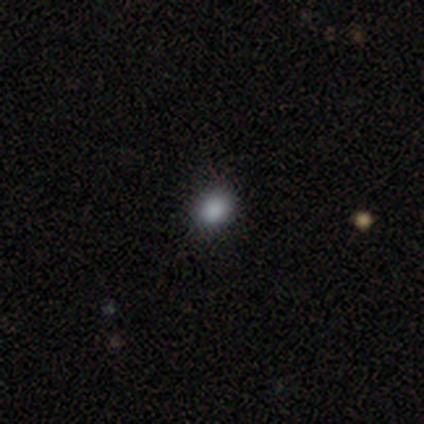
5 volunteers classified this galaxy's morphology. smooth 80%, featured or disk 20%, star or artifact 0%. Down the decision tree: how rounded — round (75%); merging — none (80%).